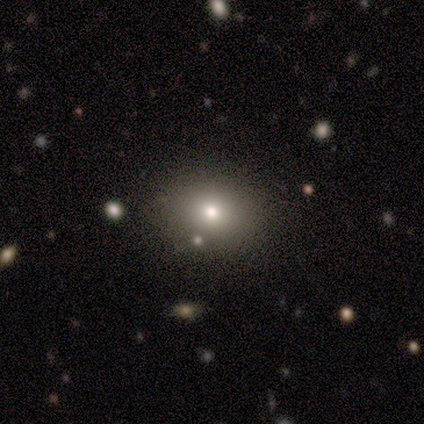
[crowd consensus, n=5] A smooth galaxy with no disk features (80%) that is round (75%).

Vote fractions:
- Smooth or featured? smooth: 80% / star or artifact: 20% / featured or disk: 0%
- How rounded? round: 75% / in between: 25% / cigar-shaped: 0%
- Merging? none: 75% / merger: 25% / minor disturbance: 0% / major disturbance: 0%